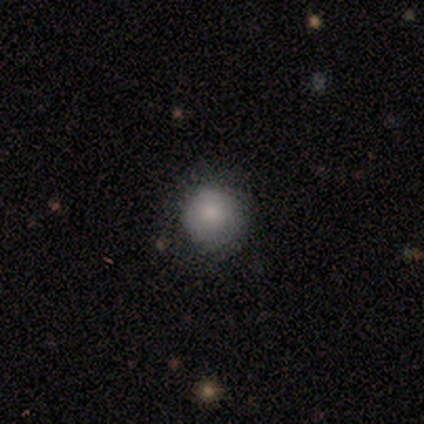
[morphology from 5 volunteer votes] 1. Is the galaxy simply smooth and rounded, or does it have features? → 60% smooth, 40% star or artifact, 0% featured or disk.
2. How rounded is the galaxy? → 100% round, 0% in between, 0% cigar-shaped.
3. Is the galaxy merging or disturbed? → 100% none, 0% minor disturbance, 0% major disturbance, 0% merger.